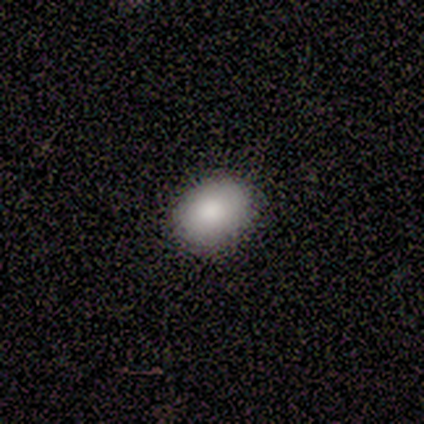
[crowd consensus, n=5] smooth 60%, featured or disk 40%, star or artifact 0%. Down the decision tree: how rounded — round (67%); merging — none (100%).